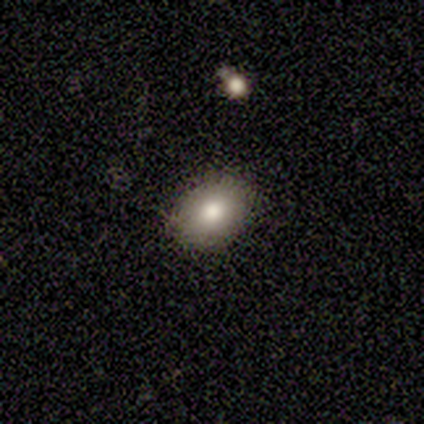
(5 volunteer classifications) Morphology: type=smooth (100%); roundness=in between (80%); merging=none (80%).